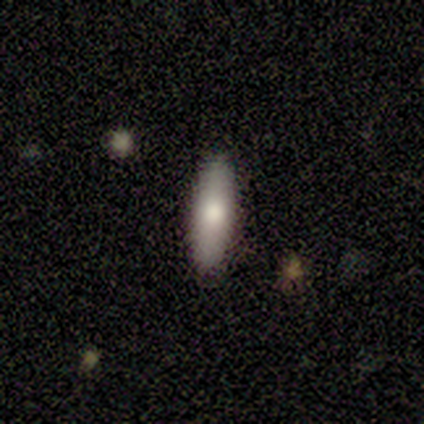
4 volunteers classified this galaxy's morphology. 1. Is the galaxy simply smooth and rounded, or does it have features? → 50% smooth (tied), 50% featured or disk (tied), 0% star or artifact.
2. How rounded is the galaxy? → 100% cigar-shaped, 0% round, 0% in between.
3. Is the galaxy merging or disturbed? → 100% none, 0% minor disturbance, 0% major disturbance, 0% merger.